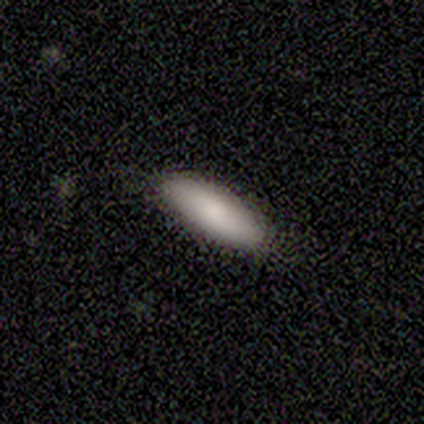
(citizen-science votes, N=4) Overall: smooth (100%). How rounded: cigar-shaped (50%; round 25%). Merging: none (100%).